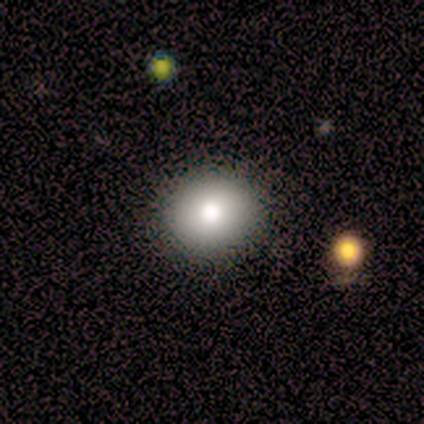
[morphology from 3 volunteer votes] Smooth or featured? smooth (67%)
How rounded? round (50%, tied with in between)
Merging? none (100%)